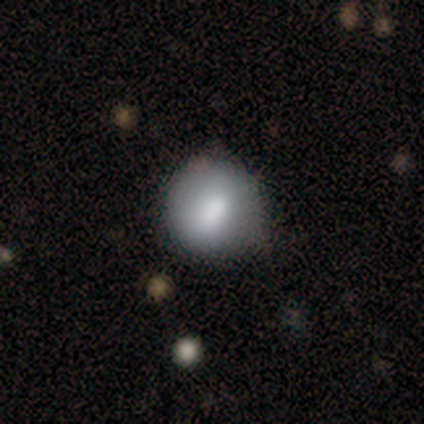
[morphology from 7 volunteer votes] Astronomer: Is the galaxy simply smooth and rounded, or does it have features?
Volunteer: smooth — 100%.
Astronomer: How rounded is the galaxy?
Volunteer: round — 100%.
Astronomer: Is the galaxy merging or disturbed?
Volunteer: minor disturbance — 71%.